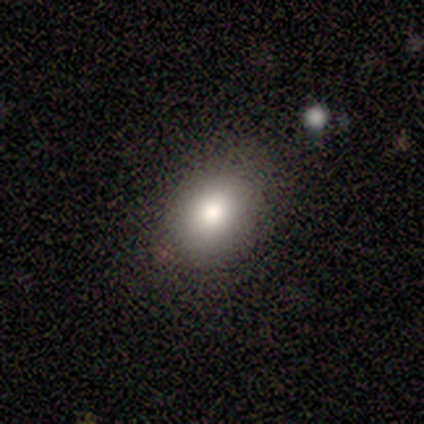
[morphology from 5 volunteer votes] A smooth galaxy with no disk features (80%) that is round (50%, tied with in between). Merging: none (75%).